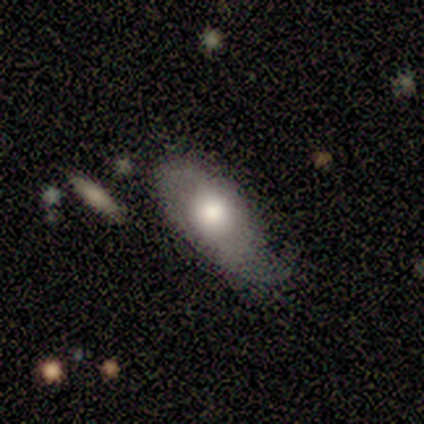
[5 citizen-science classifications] Smooth or featured? featured or disk (60%)
Edge-on disk? no (100%)
Bar? no (67%)
Spiral arms? yes (100%)
Spiral winding? loose (100%)
Spiral arm count? 2 (100%)
Bulge size? moderate (67%)
Merging? none (60%)